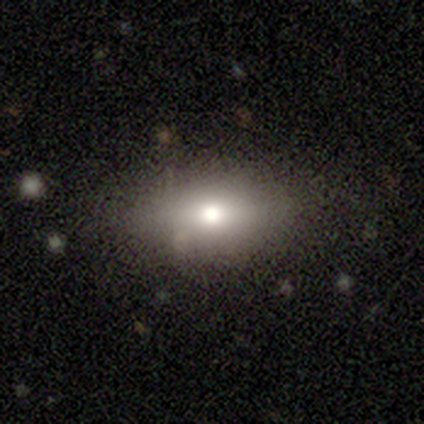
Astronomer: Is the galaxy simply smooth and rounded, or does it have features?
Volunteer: smooth — 53% (runner-up: featured or disk, 32%).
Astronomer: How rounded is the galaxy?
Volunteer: in between — 75%.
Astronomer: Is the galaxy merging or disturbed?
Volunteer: none — 81%.